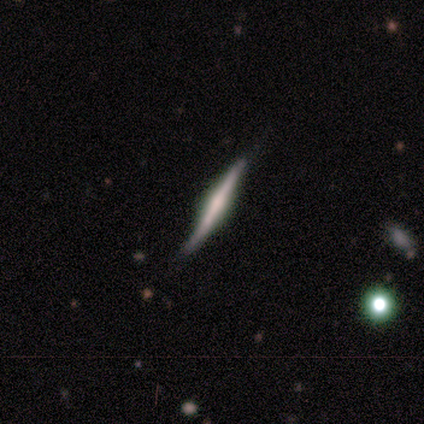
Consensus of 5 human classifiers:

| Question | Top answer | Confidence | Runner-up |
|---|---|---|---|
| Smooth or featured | featured or disk | 80% | smooth (20%) |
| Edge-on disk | yes | 100% | — |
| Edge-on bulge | rounded | 50% | boxy (25%) |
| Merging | none | 60% | minor disturbance (20%) |